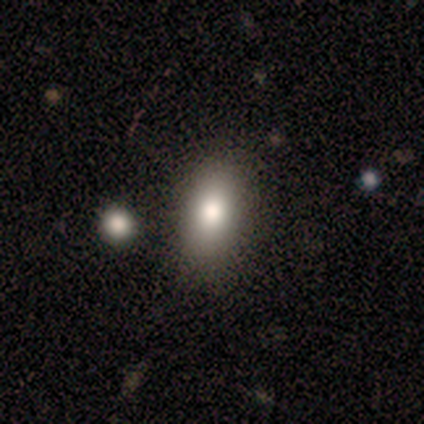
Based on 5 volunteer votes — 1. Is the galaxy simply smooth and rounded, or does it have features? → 60% smooth, 40% star or artifact, 0% featured or disk.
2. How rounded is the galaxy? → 100% in between, 0% round, 0% cigar-shaped.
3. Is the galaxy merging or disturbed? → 100% none, 0% minor disturbance, 0% major disturbance, 0% merger.